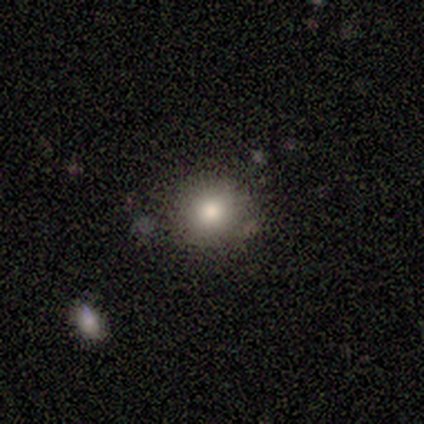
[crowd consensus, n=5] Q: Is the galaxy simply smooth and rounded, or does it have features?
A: smooth — 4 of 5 (80%).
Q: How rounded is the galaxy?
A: round — 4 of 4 (100%).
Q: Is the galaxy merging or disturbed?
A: none — 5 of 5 (100%).